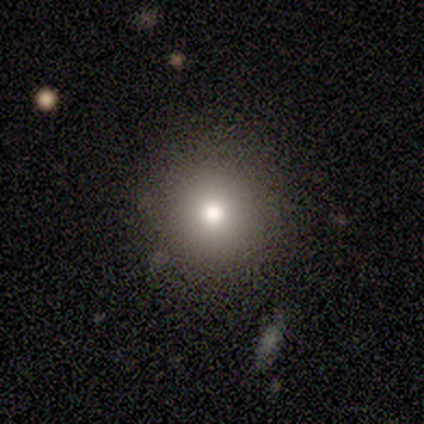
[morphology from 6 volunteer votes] Volunteers were most divided on "smooth or featured": smooth: 83%, featured or disk: 17%, star or artifact: 0%. More confident: how rounded — round (100%); merging — none (100%).